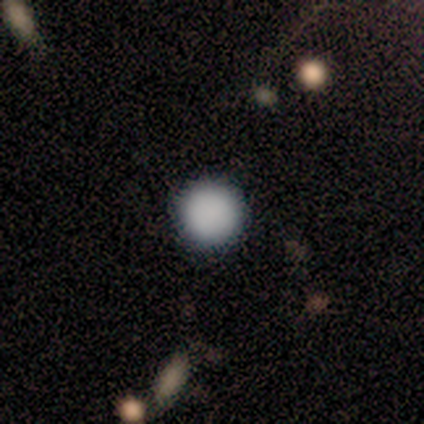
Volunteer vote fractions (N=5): smooth_or_featured: smooth (p=1.00)
how_rounded: round (p=1.00)
merging: none (p=1.00)